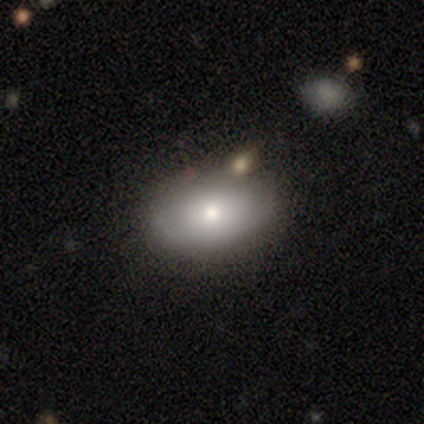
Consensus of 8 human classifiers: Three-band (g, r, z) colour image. It shows a smooth galaxy with no disk features (100%) that is in between round and cigar-shaped (88%). Merging: none (88%).